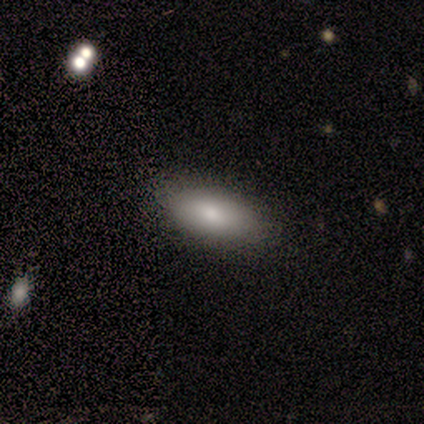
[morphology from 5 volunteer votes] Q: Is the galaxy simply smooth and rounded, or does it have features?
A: smooth — 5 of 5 (100%).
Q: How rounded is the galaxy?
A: in between — 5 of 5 (100%).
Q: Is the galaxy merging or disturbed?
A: none — 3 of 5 (60%).